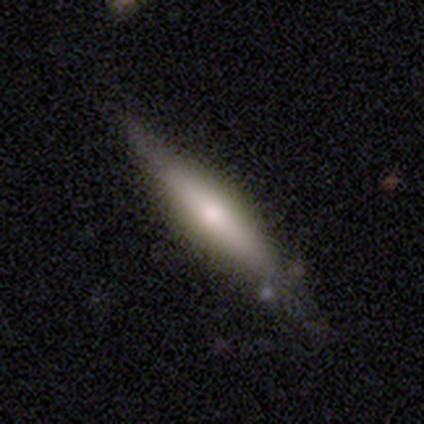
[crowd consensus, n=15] This appears to be a smooth galaxy with no disk features (47%, tied with featured or disk) that is cigar-shaped (71%). Merging: none (79%).